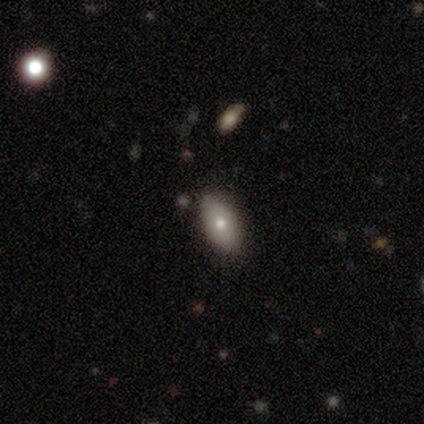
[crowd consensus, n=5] A smooth galaxy with no disk features (80%) that is in between round and cigar-shaped (75%).

Vote fractions:
- Smooth or featured? smooth: 80% / featured or disk: 20% / star or artifact: 0%
- How rounded? in between: 75% / round: 25% / cigar-shaped: 0%
- Merging? none: 60% / minor disturbance: 20% / major disturbance: 20% / merger: 0%